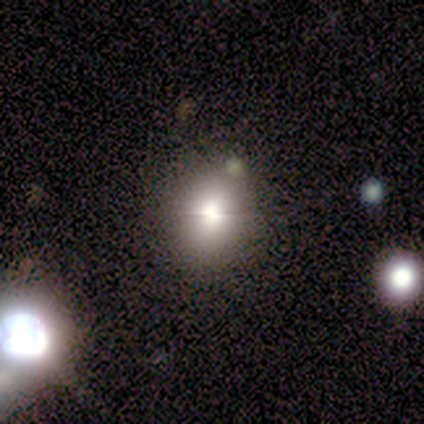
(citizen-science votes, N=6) smooth_or_featured: smooth (p=0.67) [alt: featured or disk p=0.33]
how_rounded: round (p=0.75) [alt: in between p=0.25]
merging: none (p=0.67) [alt: minor disturbance p=0.33]